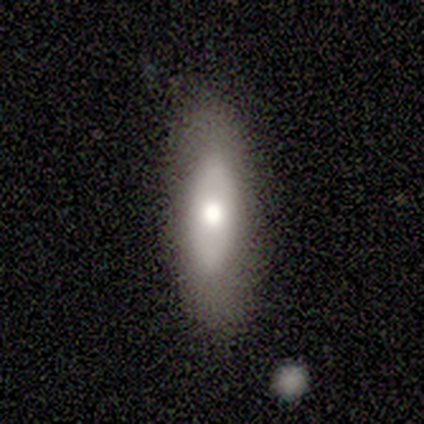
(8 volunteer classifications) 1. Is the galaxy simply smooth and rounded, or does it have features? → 88% smooth, 12% featured or disk, 0% star or artifact.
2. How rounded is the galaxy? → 71% in between, 14% round, 14% cigar-shaped.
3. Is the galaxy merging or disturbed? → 100% none, 0% minor disturbance, 0% major disturbance, 0% merger.